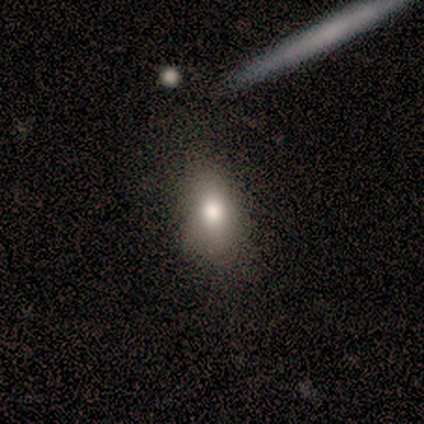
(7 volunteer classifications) Q: Smooth or featured?
A: smooth (71%); runner-up: featured or disk (14%)
Q: How rounded?
A: in between (100%)
Q: Merging?
A: none (83%); runner-up: minor disturbance (17%)